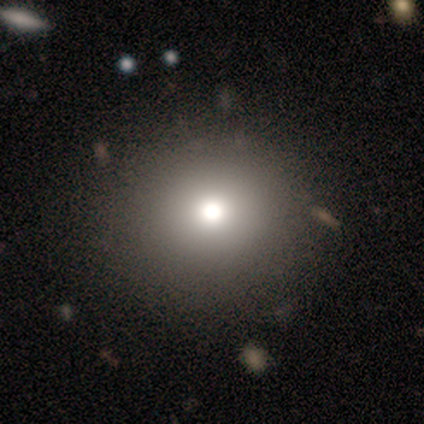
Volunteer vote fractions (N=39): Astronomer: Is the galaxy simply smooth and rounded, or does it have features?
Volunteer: smooth — 69%.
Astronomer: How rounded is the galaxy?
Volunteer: round — 81%.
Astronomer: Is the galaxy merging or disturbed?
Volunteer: none — 91%.